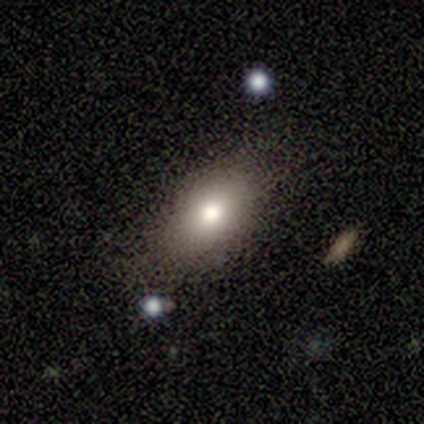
Q: Smooth or featured?
A: smooth (80%); runner-up: star or artifact (20%)
Q: How rounded?
A: in between (100%)
Q: Merging?
A: none (100%)